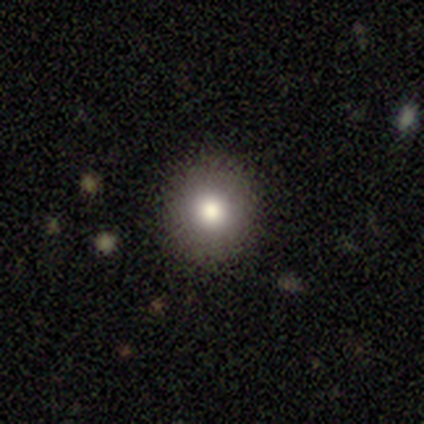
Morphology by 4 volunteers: This appears to be a smooth galaxy with no disk features (75%) that is round (100%). Merging: none (100%).